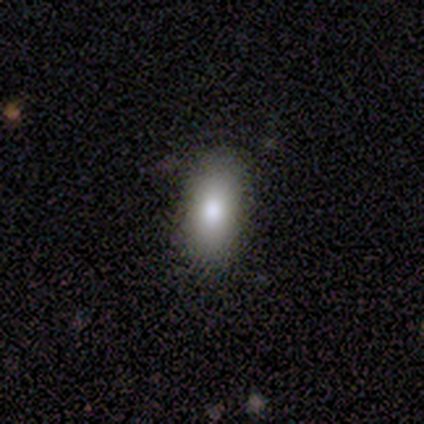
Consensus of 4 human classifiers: Q: Smooth or featured?
A: smooth (100%)
Q: How rounded?
A: in between (75%); runner-up: cigar-shaped (25%)
Q: Merging?
A: none (100%)